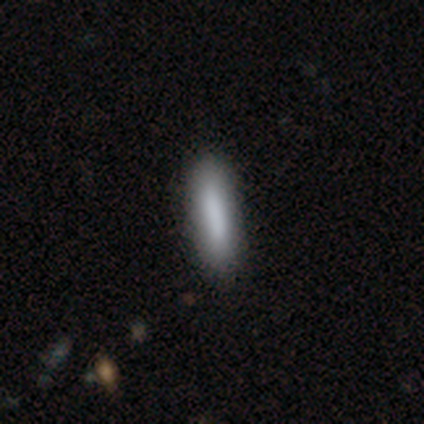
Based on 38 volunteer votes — This appears to be a smooth galaxy with no disk features (71%) that is cigar-shaped (81%). Merging: none (89%).